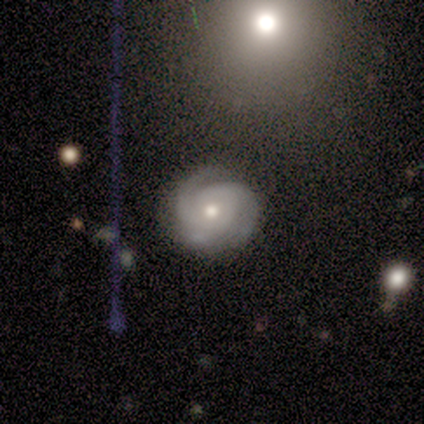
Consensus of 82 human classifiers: Volunteers were most divided on "spiral arm count": 3: 41%, 2: 38%, can't tell: 16%, 1: 4%, 4: 1%, more than 4: 0%. More confident: edge-on disk — no (100%); spiral arms — yes (100%); smooth or featured — featured or disk (90%); bar — no (82%); merging — none (78%); bulge size — moderate (72%); spiral winding — tight (62%).